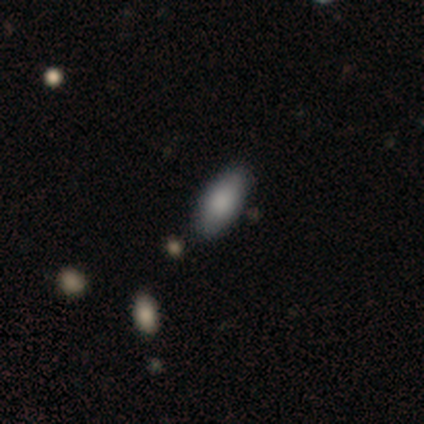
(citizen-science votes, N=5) Smooth or featured?
  - smooth: 100% *
  - featured or disk: 0%
  - star or artifact: 0%
How rounded?
  - in between: 80% *
  - cigar-shaped: 20%
  - round: 0%
Merging?
  - none: 80% *
  - minor disturbance: 20%
  - major disturbance: 0%
  - merger: 0%